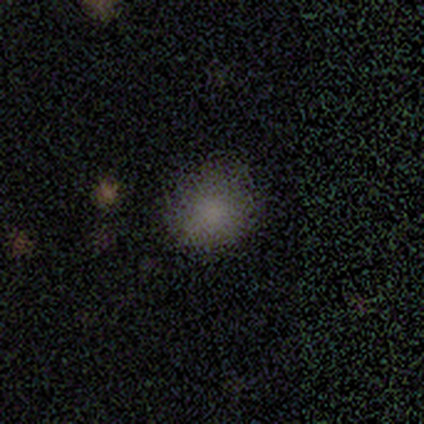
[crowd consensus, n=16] This is clearly a smooth galaxy (81%). How rounded: possibly round (54%). Merging: clearly none (80%).